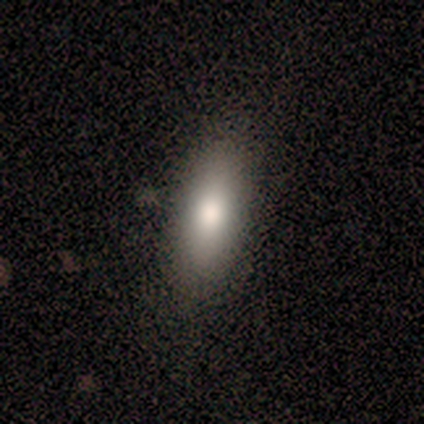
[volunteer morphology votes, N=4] This appears to be a smooth galaxy with no disk features (75%) that is in between round and cigar-shaped (67%). Merging: none (75%).